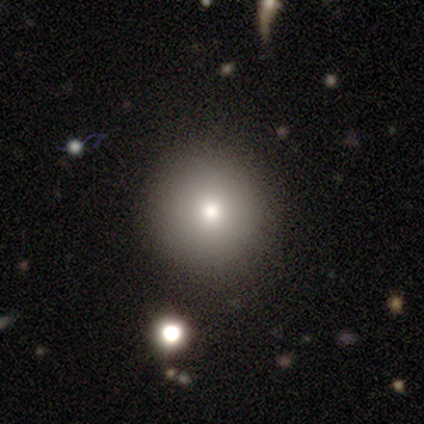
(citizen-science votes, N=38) Morphology: type=smooth (92%); roundness=round (94%); merging=none (92%).